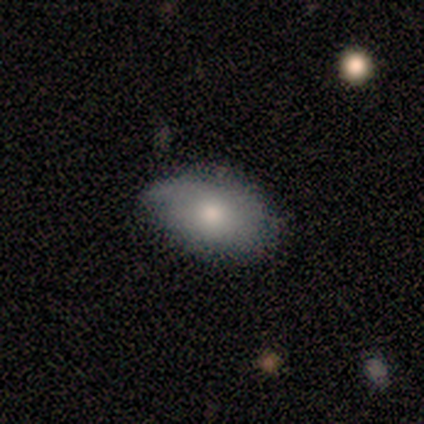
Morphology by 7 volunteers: Q: Smooth or featured?
A: smooth (71%); runner-up: featured or disk (29%)
Q: How rounded?
A: in between (100%)
Q: Merging?
A: none (43%); tied with: minor disturbance (43%)